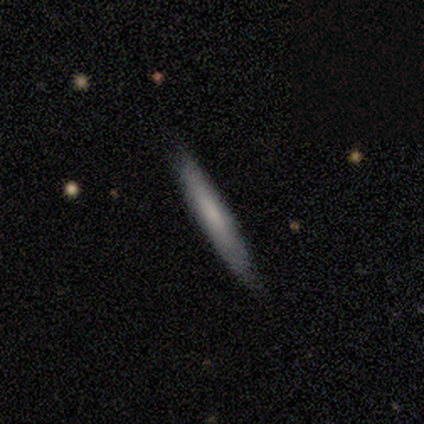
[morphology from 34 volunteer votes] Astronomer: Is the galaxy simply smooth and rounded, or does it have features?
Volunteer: smooth — 56% (runner-up: featured or disk, 44%).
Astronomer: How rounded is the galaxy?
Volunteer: cigar-shaped — 95%.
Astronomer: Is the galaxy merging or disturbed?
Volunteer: none — 88%.